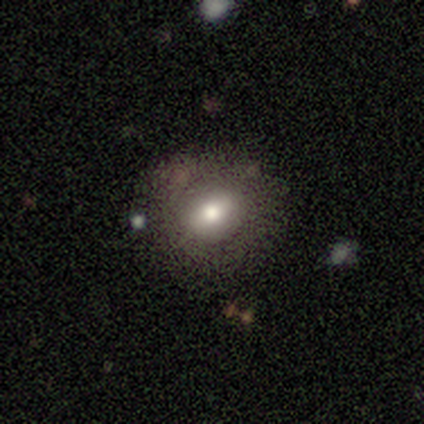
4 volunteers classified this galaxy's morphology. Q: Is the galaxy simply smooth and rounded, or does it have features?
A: featured or disk — 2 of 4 (50%).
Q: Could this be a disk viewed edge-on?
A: yes — 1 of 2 (50%, tied with no).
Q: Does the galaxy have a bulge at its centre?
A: boxy — 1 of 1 (100%).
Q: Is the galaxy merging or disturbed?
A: none — 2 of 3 (67%).